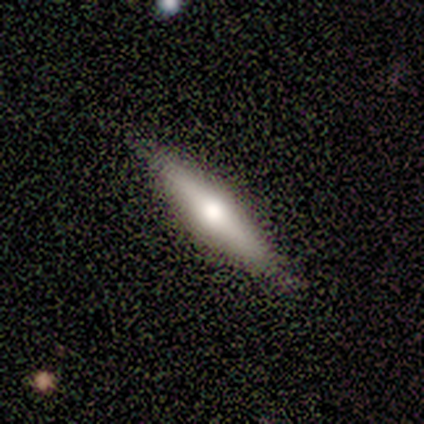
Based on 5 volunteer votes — Smooth or featured? smooth (80%)
How rounded? cigar-shaped (75%)
Merging? none (80%)